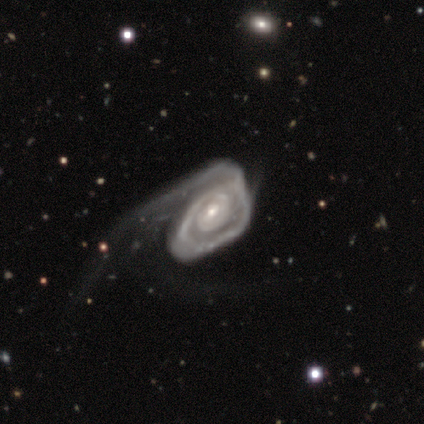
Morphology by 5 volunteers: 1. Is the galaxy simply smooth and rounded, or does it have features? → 100% featured or disk, 0% smooth, 0% star or artifact.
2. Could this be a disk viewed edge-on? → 100% no, 0% yes.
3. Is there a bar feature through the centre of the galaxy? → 80% no, 20% weak, 0% strong.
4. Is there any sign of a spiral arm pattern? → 80% yes, 20% no.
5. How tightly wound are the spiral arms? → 75% tight, 25% loose, 0% medium.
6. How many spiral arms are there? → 50% 1, 25% 2, 25% can't tell, 0% 3, 0% 4, 0% more than 4.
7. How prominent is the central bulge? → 40% moderate (tied), 40% small (tied), 20% dominant, 0% large, 0% none.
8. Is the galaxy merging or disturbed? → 80% major disturbance, 20% minor disturbance, 0% none, 0% merger.